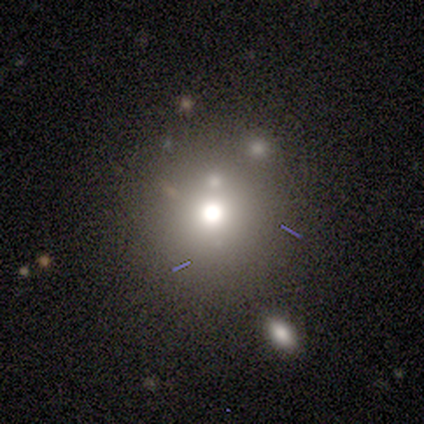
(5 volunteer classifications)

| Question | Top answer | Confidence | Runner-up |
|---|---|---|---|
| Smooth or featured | star or artifact | 60% | smooth (40%) |